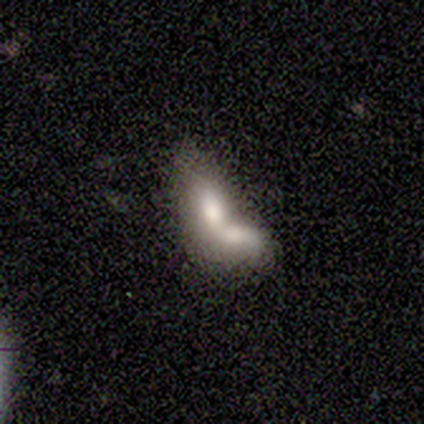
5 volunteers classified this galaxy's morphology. smooth 60%, featured or disk 40%, star or artifact 0%. Down the decision tree: how rounded — in between (100%); merging — merger (100%).